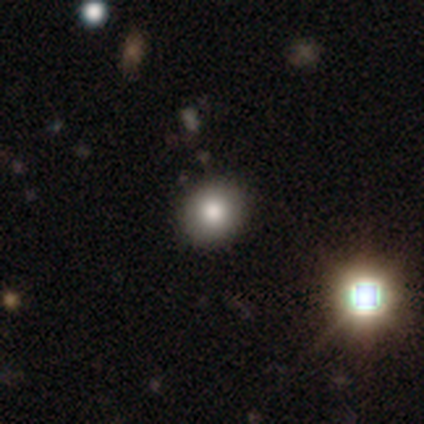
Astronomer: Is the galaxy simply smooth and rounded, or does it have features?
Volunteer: smooth — 80%.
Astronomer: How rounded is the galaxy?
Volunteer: round — 75%.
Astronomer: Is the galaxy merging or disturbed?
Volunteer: none — 100%.